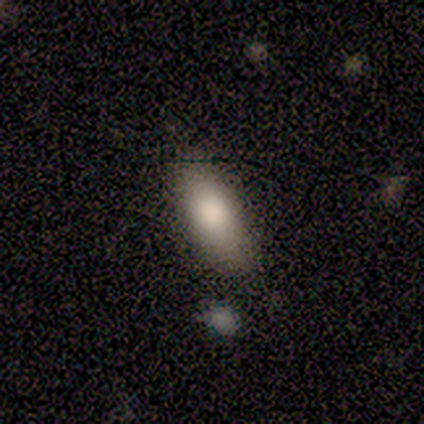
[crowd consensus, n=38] Overall: smooth (82%). How rounded: in between (84%). Merging: none (58%).